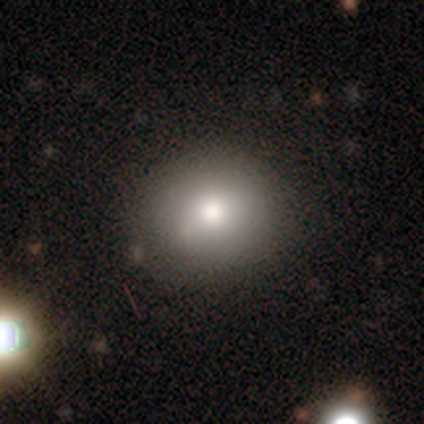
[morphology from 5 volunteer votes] This is clearly a smooth galaxy (100%). How rounded: clearly round (80%). Merging: likely none (60%).